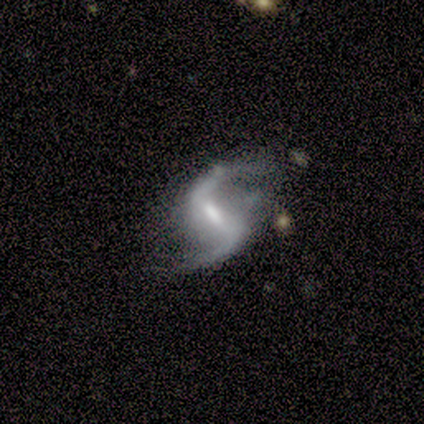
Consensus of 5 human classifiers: Morphology: type=featured or disk (100%); edge-on=no (100%); bar=weak (80%); spiral arms=yes (80%); winding=loose (100%); arm count=2 (100%); bulge=small (60%); merging=none (80%).